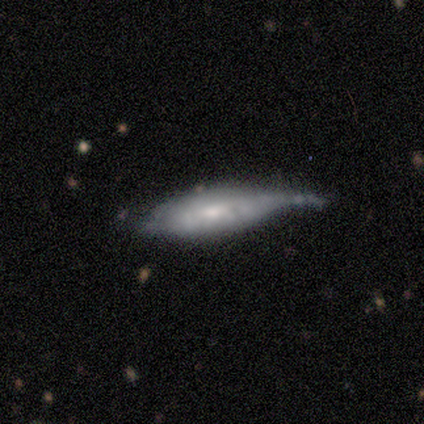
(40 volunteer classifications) featured or disk 60%, smooth 35%, star or artifact 5%. Down the decision tree: edge-on disk — no (67%); bar — no (75%); spiral arms — yes (62%); spiral arm count — can't tell (60%); spiral winding — tight (60%); bulge size — small (50%); merging — major disturbance (45%).